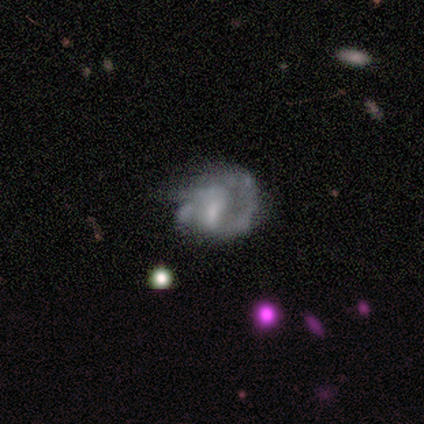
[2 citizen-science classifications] A featured or disk galaxy (100%) with no bar (100%), no spiral arms (100%) and a small central bulge (50%, tied with none).

Vote fractions:
- Smooth or featured? featured or disk: 100% / smooth: 0% / star or artifact: 0%
- Edge-on disk? no: 100% / yes: 0%
- Bar? no: 100% / strong: 0% / weak: 0%
- Spiral arms? no: 100% / yes: 0%
- Bulge size? small: 50% (tied) / none: 50% (tied) / dominant: 0% / large: 0% / moderate: 0%
- Merging? none: 50% (tied) / major disturbance: 50% (tied) / minor disturbance: 0% / merger: 0%